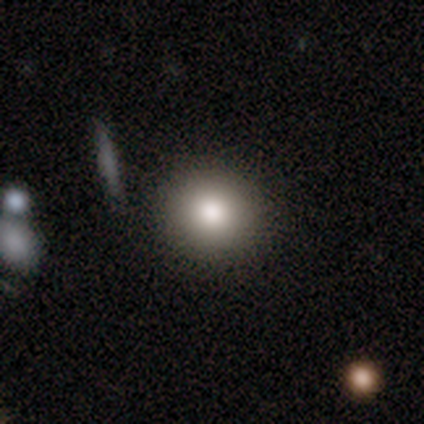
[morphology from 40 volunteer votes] smooth-or-featured: smooth: 75% | star or artifact: 20% | featured or disk: 5%
  how-rounded: round: 93% | in between: 7% | cigar-shaped: 0%
  merging: none: 97% | minor disturbance: 3% | major disturbance: 0% | merger: 0%